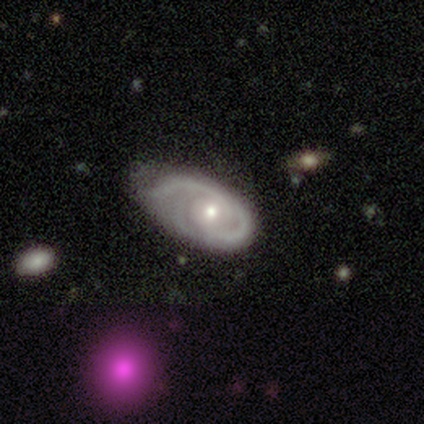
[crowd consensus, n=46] A featured or disk galaxy (76%) with no bar (79%), 2 (48%) medium (45%) spiral arms (85%) and a moderate central bulge (56%). Merging: minor disturbance (45%).